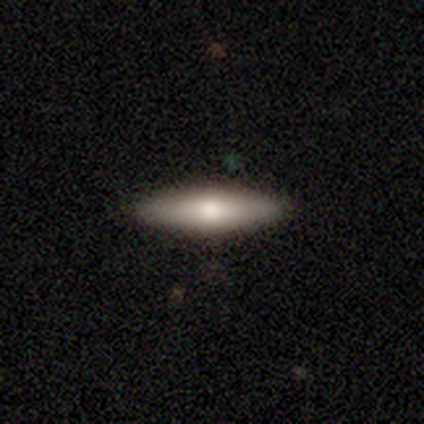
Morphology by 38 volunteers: Smooth or featured? smooth (47%, tied with featured or disk)
How rounded? cigar-shaped (83%)
Merging? none (94%)